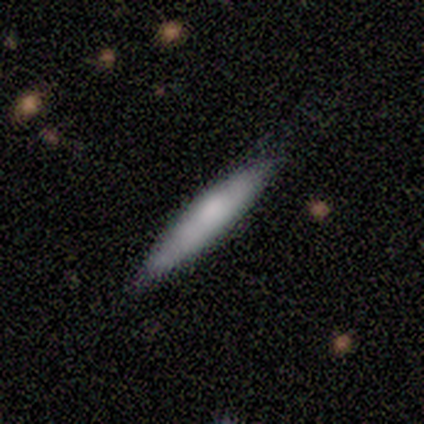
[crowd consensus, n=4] smooth 75%, featured or disk 25%, star or artifact 0%. Down the decision tree: how rounded — cigar-shaped (67%); merging — none (100%).